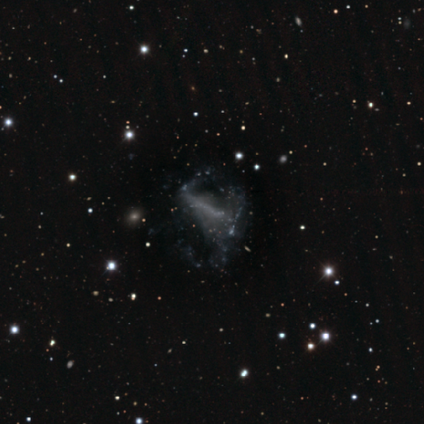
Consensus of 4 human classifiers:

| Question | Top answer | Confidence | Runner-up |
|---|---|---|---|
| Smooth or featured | featured or disk | 75% | star or artifact (25%) |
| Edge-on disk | no | 100% | — |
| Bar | no | 67% | weak (33%) |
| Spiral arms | no | 67% | yes (33%) |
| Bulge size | none | 100% | — |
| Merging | major disturbance | 67% | minor disturbance (33%) |